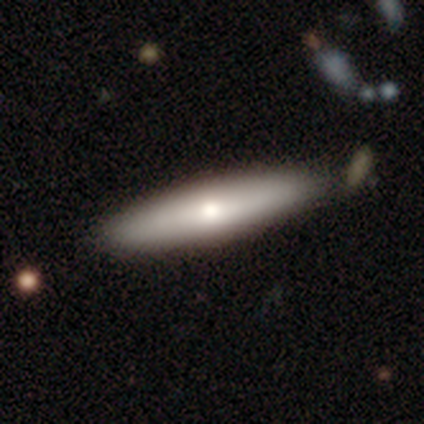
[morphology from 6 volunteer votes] smooth_or_featured: smooth (p=1.00)
how_rounded: cigar-shaped (p=1.00)
merging: none (p=0.67) [alt: minor disturbance p=0.17]